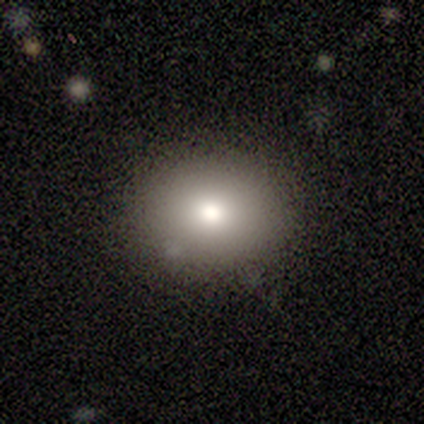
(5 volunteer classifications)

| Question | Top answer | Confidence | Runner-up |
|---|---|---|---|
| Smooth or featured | smooth | 80% | star or artifact (20%) |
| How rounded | round | 100% | — |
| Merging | none | 100% | — |